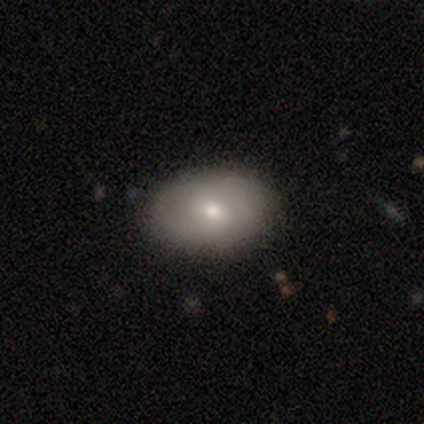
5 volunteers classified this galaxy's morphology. Q: Smooth or featured?
A: smooth (80%); runner-up: featured or disk (20%)
Q: How rounded?
A: in between (75%); runner-up: cigar-shaped (25%)
Q: Merging?
A: none (80%); runner-up: minor disturbance (20%)